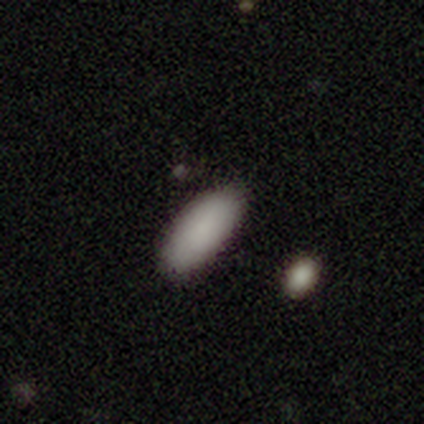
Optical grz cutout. It shows a smooth galaxy with no disk features (100%) that is in between round and cigar-shaped (75%). Merging: none (100%).